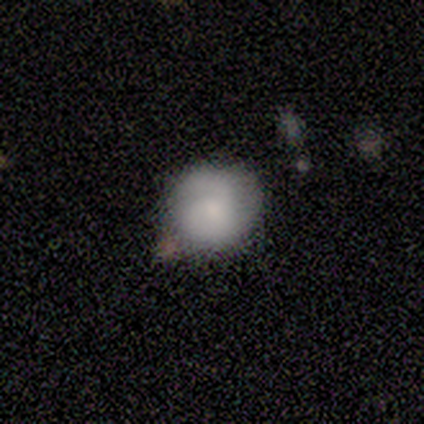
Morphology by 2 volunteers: Smooth or featured? 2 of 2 (100%) said smooth. How rounded? 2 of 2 (100%) said round. Merging? 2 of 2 (100%) said none.